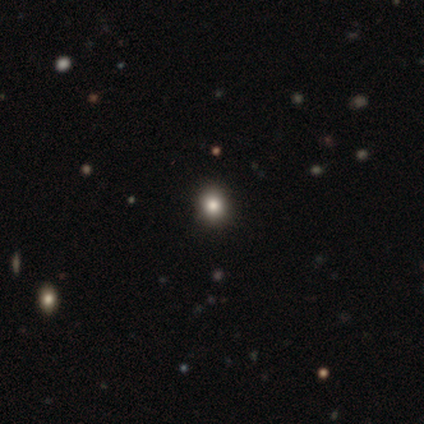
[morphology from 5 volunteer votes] Smooth or featured? 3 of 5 (60%) said smooth. How rounded? 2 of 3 (67%) said round. Merging? 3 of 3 (100%) said none.